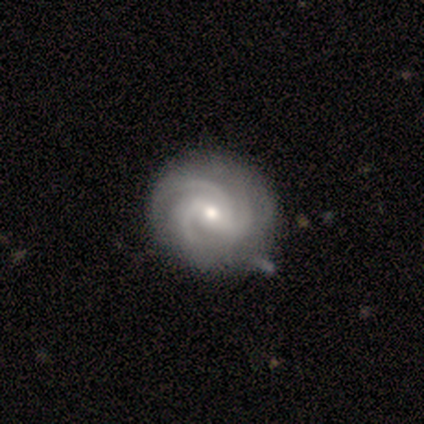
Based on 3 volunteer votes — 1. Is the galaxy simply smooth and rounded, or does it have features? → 100% featured or disk, 0% smooth, 0% star or artifact.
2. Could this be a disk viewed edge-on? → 100% no, 0% yes.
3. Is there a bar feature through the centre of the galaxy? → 67% no, 33% weak, 0% strong.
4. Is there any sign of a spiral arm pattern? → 100% yes, 0% no.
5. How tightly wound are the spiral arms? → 100% tight, 0% medium, 0% loose.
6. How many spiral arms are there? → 67% 3, 33% 4, 0% 1, 0% 2, 0% more than 4, 0% can't tell.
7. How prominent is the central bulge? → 67% small, 33% moderate, 0% dominant, 0% large, 0% none.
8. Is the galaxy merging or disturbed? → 100% none, 0% minor disturbance, 0% major disturbance, 0% merger.